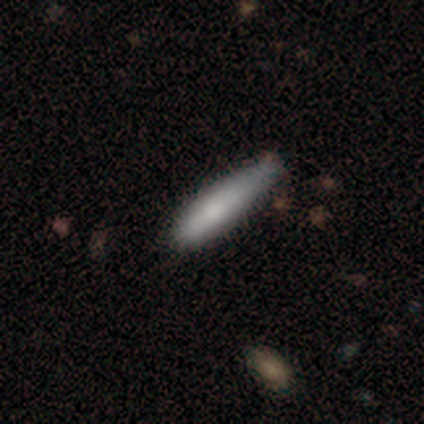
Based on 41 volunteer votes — This is clearly a smooth galaxy (85%). How rounded: likely cigar-shaped (77%). Merging: likely none (68%).